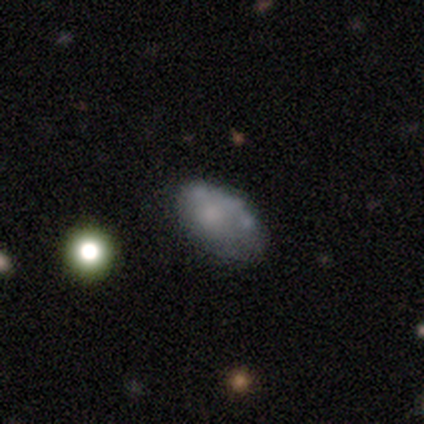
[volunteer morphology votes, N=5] Smooth or featured? 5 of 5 (100%) said smooth. How rounded? 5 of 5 (100%) said in between. Merging? 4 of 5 (80%) said none.